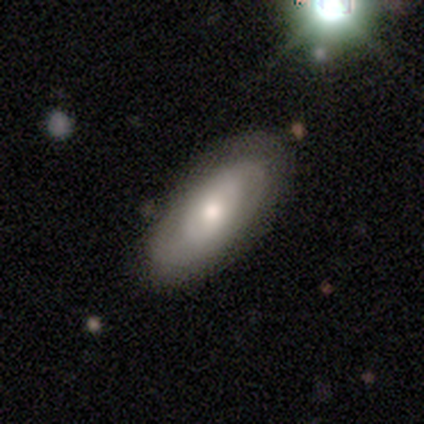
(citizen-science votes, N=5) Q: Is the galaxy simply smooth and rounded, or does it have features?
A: smooth — 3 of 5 (60%).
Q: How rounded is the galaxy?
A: in between — 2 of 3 (67%).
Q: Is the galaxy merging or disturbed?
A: none — 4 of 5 (80%).